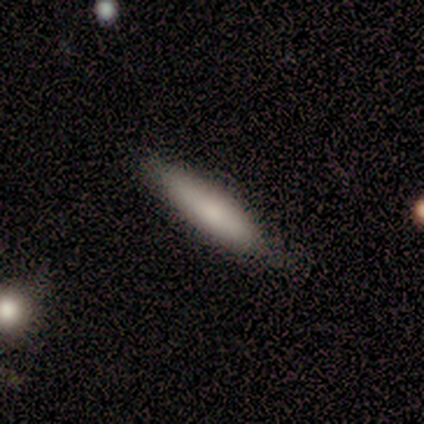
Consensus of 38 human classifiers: A smooth galaxy with no disk features (79%) that is cigar-shaped (73%).

Vote fractions:
- Smooth or featured? smooth: 79% / featured or disk: 13% / star or artifact: 8%
- How rounded? cigar-shaped: 73% / in between: 23% / round: 3%
- Merging? none: 69% / minor disturbance: 26% / major disturbance: 6% / merger: 0%